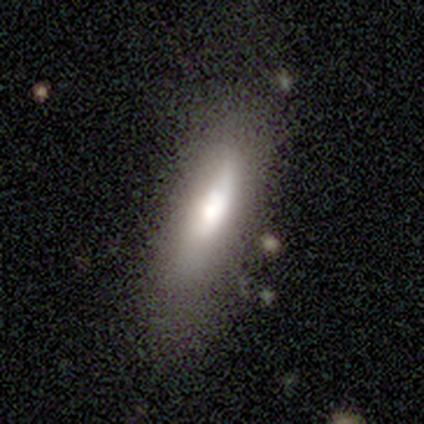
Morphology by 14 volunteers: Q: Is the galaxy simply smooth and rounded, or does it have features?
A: smooth — 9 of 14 (64%).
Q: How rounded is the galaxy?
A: in between — 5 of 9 (56%).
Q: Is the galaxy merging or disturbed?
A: none — 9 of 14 (64%).